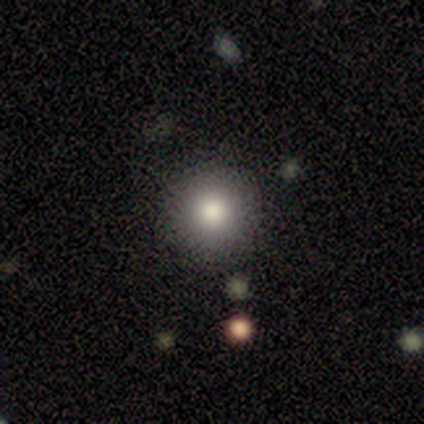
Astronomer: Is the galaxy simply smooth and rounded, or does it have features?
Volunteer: smooth — 80%.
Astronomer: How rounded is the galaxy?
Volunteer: round — 100%.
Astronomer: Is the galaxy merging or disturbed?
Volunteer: none — 100%.